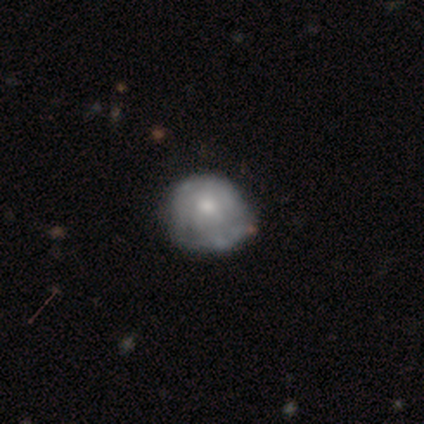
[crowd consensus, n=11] Smooth or featured? featured or disk (45%)
Edge-on disk? no (100%)
Bar? no (100%)
Spiral arms? yes (60%)
Spiral winding? medium (67%)
Spiral arm count? 3 (67%)
Bulge size? moderate (80%)
Merging? none (78%)